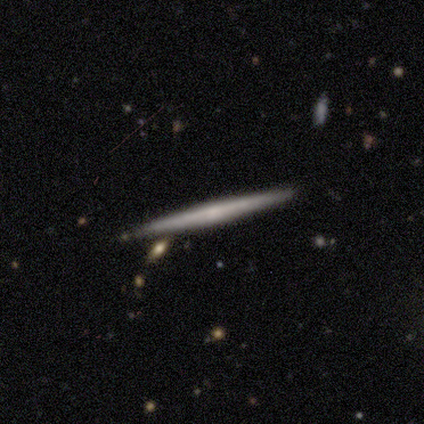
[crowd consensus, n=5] smooth-or-featured: featured or disk: 100% | smooth: 0% | star or artifact: 0%
  disk-edge-on: yes: 100% | no: 0%
    edge-on-bulge: none: 80% | boxy: 20% | rounded: 0%
  merging: none: 100% | minor disturbance: 0% | major disturbance: 0% | merger: 0%